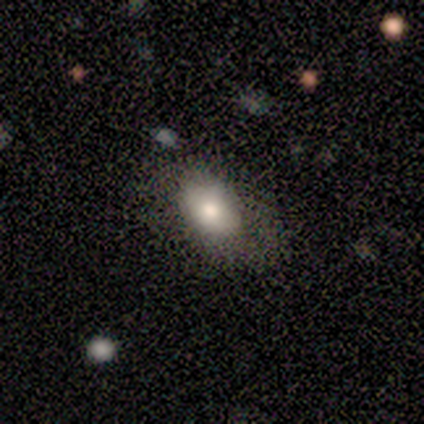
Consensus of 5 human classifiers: smooth 60%, featured or disk 40%, star or artifact 0%. Down the decision tree: how rounded — in between (100%); merging — minor disturbance (60%).